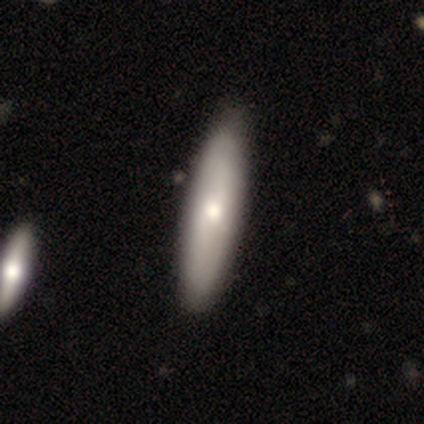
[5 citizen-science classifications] Smooth or featured: featured or disk — 60% (smooth — 40%)
Edge-on disk: no — 67% (yes — 33%)
Bar: no — 100%
Spiral arms: yes — 50% (tied with no — 50%)
Spiral winding: tight — 100%
Spiral arm count: can't tell — 100%
Bulge size: moderate — 50% (tied with small — 50%)
Merging: none — 100%